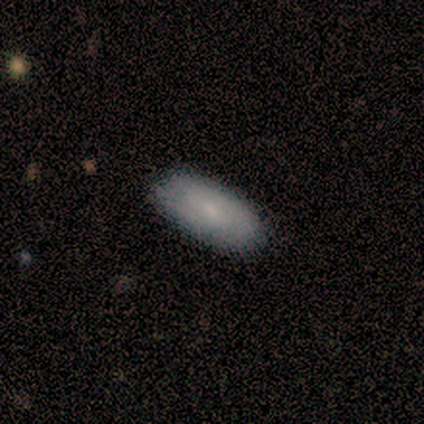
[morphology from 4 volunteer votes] Q: Smooth or featured?
A: smooth (75%); runner-up: featured or disk (25%)
Q: How rounded?
A: in between (100%)
Q: Merging?
A: none (100%)